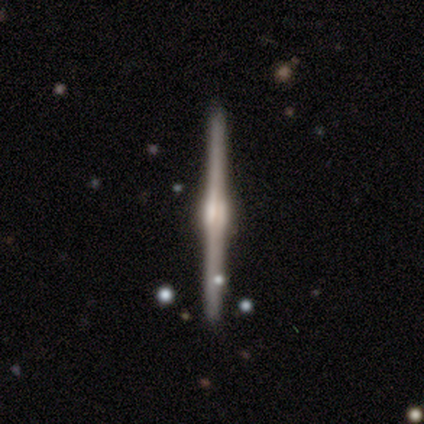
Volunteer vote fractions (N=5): Smooth or featured?
  - featured or disk: 100% *
  - smooth: 0%
  - star or artifact: 0%
Edge-on disk?
  - yes: 100% *
  - no: 0%
Edge-on bulge?
  - rounded: 60% *
  - boxy: 40%
  - none: 0%
Merging?
  - none: 100% *
  - minor disturbance: 0%
  - major disturbance: 0%
  - merger: 0%